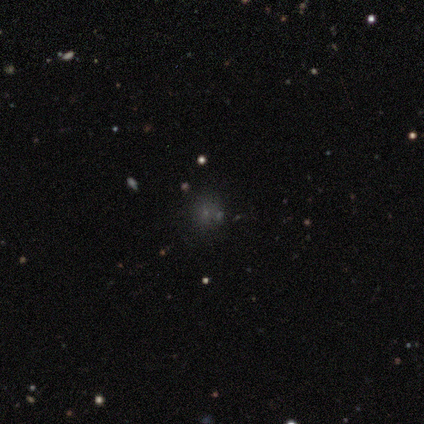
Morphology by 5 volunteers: This is marginally a smooth galaxy (40%, tied with star or artifact). How rounded: clearly round (100%). Merging: likely none (67%).